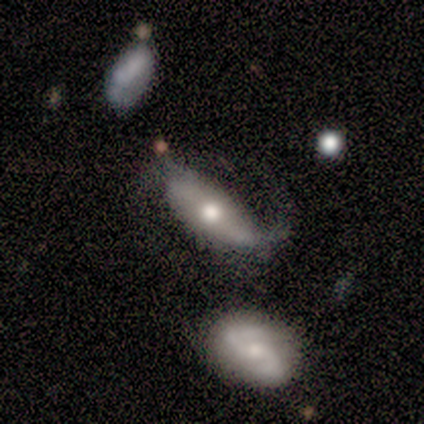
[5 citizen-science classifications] Q: Smooth or featured?
A: featured or disk (80%); runner-up: smooth (20%)
Q: Edge-on disk?
A: no (75%); runner-up: yes (25%)
Q: Bar?
A: strong (33%); tied with: weak (33%); no (33%)
Q: Spiral arms?
A: yes (100%)
Q: Spiral winding?
A: loose (67%); runner-up: tight (33%)
Q: Spiral arm count?
A: 2 (67%); runner-up: can't tell (33%)
Q: Bulge size?
A: moderate (67%); runner-up: small (33%)
Q: Merging?
A: none (60%); runner-up: major disturbance (40%)